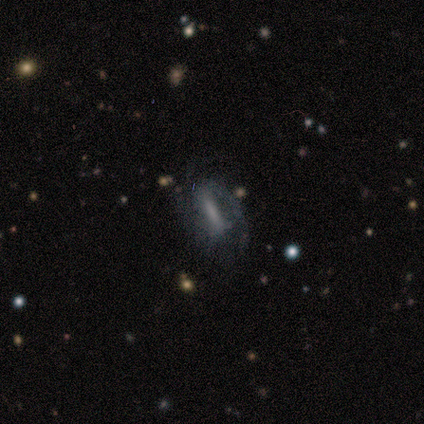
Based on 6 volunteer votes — Smooth or featured: featured or disk — 67% (smooth — 17%)
Edge-on disk: no — 100%
Bar: strong — 100%
Spiral arms: yes — 100%
Spiral winding: medium — 50% (tight — 25%)
Spiral arm count: 2 — 75% (can't tell — 25%)
Bulge size: large — 50% (moderate — 25%)
Merging: none — 40% (tied with minor disturbance — 40%)